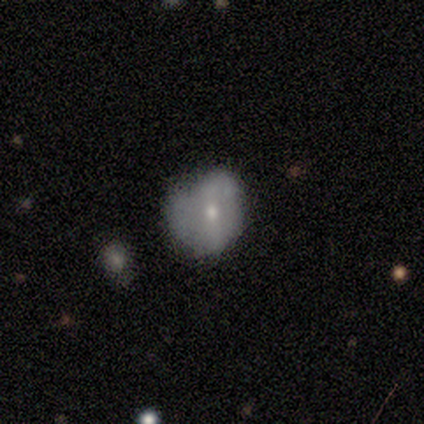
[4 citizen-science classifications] Overall: smooth (75%). How rounded: in between (67%; round 33%). Merging: minor disturbance (75%).